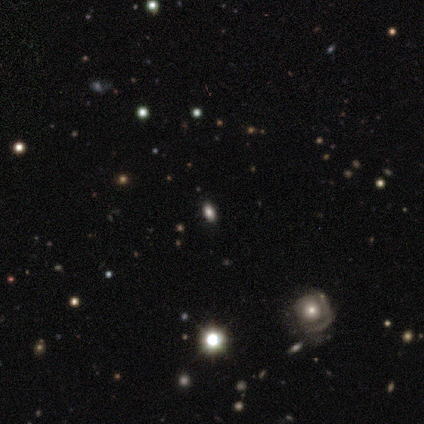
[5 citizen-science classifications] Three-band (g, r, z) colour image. It shows a smooth galaxy with no disk features (40%, tied with featured or disk) that is round (50%, tied with in between). Merging: none (50%, tied with minor disturbance).